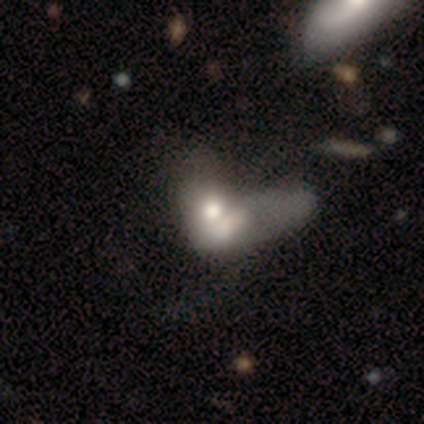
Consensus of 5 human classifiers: This appears to be a smooth galaxy with no disk features (60%) that is in between round and cigar-shaped (67%). Merging: merger (100%).